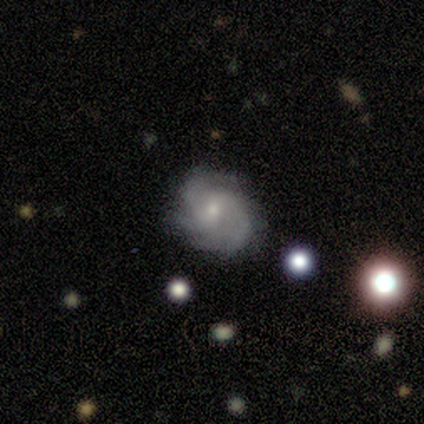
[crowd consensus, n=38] This is likely a featured or disk galaxy (68%). It is clearly not viewed edge-on (96%). Bar: likely no (60%). Spiral arm pattern: clearly yes (96%). Spiral arm count: likely 3 (62%). Spiral winding: possibly tight (50%). Central bulge: likely small (68%). Merging: clearly none (81%).